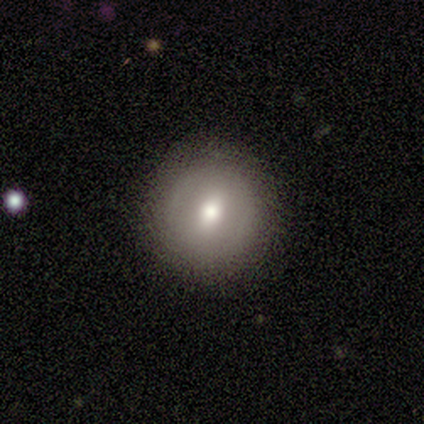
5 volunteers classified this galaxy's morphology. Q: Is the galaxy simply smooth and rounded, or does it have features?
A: featured or disk — 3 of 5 (60%).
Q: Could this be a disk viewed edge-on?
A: no — 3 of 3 (100%).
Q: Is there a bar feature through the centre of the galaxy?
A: strong — 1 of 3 (33%, tied with weak and no).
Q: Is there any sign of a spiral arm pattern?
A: no — 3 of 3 (100%).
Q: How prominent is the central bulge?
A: moderate — 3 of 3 (100%).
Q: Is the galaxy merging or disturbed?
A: none — 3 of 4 (75%).